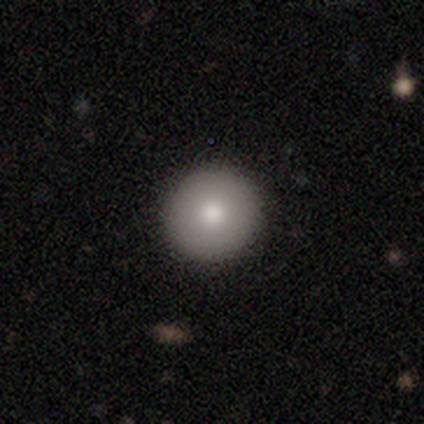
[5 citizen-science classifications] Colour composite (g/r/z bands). It shows a smooth galaxy with no disk features (60%) that is round (100%). Merging: none (100%).